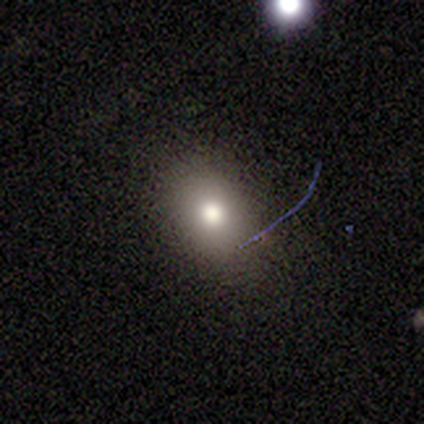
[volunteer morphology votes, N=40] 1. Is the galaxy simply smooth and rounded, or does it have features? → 55% smooth, 30% star or artifact, 15% featured or disk.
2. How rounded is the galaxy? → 77% in between, 23% round, 0% cigar-shaped.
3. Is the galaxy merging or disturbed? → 89% none, 7% minor disturbance, 4% major disturbance, 0% merger.